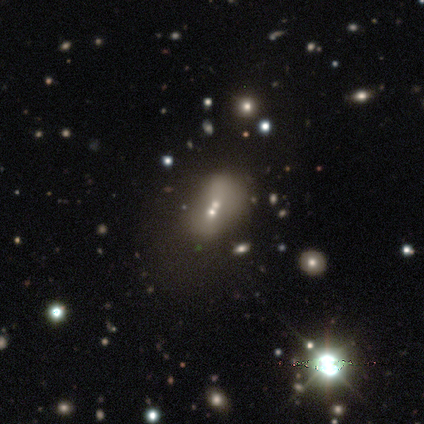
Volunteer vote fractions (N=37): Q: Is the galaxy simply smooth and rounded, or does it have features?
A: smooth — 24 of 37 (65%).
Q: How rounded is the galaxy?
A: in between — 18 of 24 (75%).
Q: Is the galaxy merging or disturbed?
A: merger — 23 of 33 (70%).